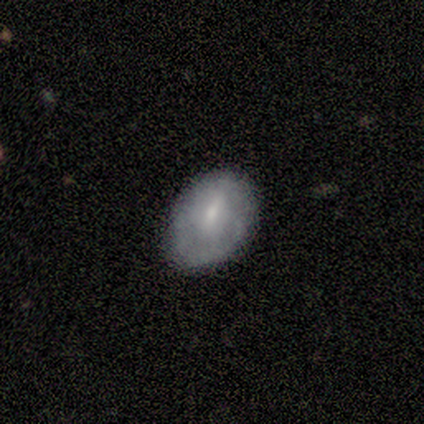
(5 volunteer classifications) Morphology: type=smooth (80%); roundness=in between (75%); merging=none (60%).